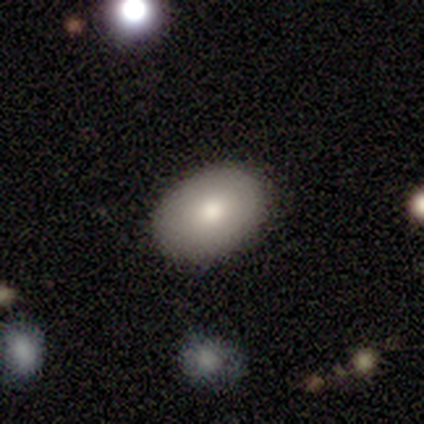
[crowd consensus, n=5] Morphology: type=smooth (80%); roundness=in between (100%); merging=none (100%).